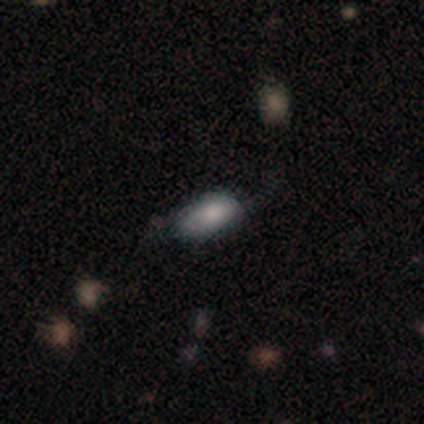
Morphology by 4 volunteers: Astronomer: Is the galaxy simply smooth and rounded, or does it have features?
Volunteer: smooth — 75%.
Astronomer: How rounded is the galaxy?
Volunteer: in between — 100%.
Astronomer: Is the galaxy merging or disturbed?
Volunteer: minor disturbance — 100%.